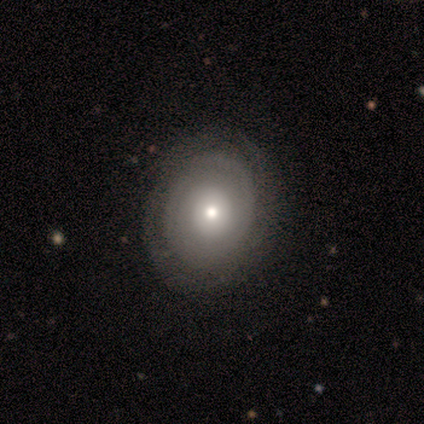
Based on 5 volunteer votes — Smooth or featured?
  - smooth: 80% *
  - featured or disk: 20%
  - star or artifact: 0%
How rounded?
  - round: 50% *
  - in between: 25%
  - cigar-shaped: 25%
Merging?
  - none: 40% * (tied)
  - major disturbance: 40% * (tied)
  - minor disturbance: 20%
  - merger: 0%